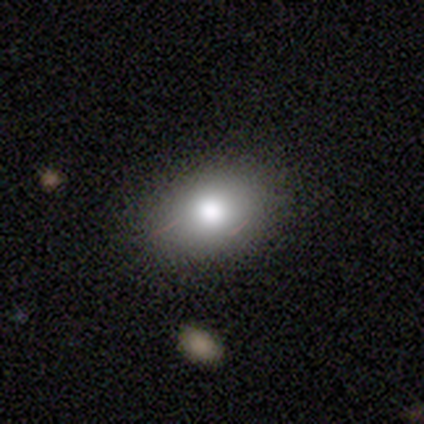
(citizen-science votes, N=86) Overall: smooth (80%). How rounded: in between (72%). Merging: none (84%).